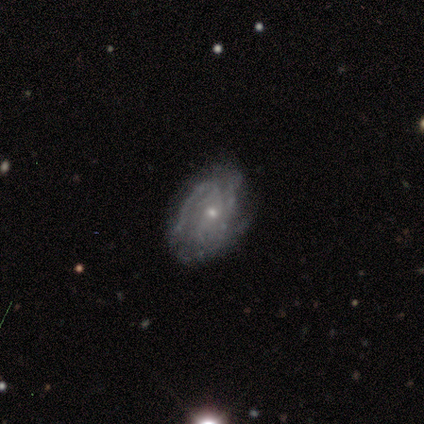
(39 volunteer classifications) featured or disk 74%, smooth 21%, star or artifact 5%. Down the decision tree: edge-on disk — no (97%); bar — no (82%); spiral arms — yes (86%); spiral arm count — 2 (25%, tied with can't tell); spiral winding — tight (54%); bulge size — small (75%); merging — none (62%).